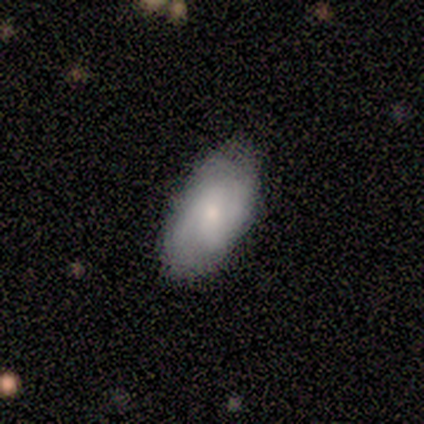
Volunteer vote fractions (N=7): smooth_or_featured: featured or disk (p=0.71) [alt: smooth p=0.14]
disk_edge_on: no (p=1.00)
bar: weak (p=0.40) [tied with: no p=0.40]
has_spiral_arms: yes (p=1.00)
spiral_winding: tight (p=0.40) [tied with: loose p=0.40]
spiral_arm_count: 2 (p=0.60) [alt: 3 p=0.20]
bulge_size: small (p=0.60) [alt: moderate p=0.40]
merging: none (p=0.67) [alt: minor disturbance p=0.33]